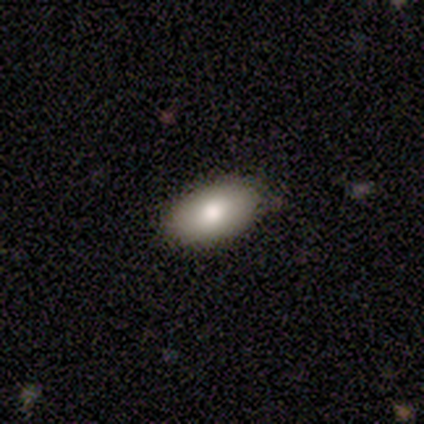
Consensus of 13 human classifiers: A smooth galaxy with no disk features (69%) that is in between round and cigar-shaped (100%).

Vote fractions:
- Smooth or featured? smooth: 69% / featured or disk: 23% / star or artifact: 8%
- How rounded? in between: 100% / round: 0% / cigar-shaped: 0%
- Merging? none: 83% / minor disturbance: 17% / major disturbance: 0% / merger: 0%